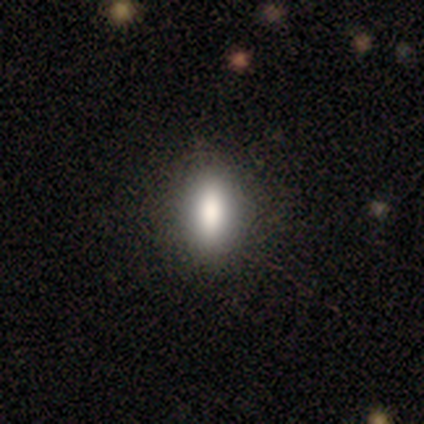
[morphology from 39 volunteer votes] A smooth galaxy with no disk features (72%) that is in between round and cigar-shaped (71%).

Vote fractions:
- Smooth or featured? smooth: 72% / star or artifact: 15% / featured or disk: 13%
- How rounded? in between: 71% / cigar-shaped: 21% / round: 7%
- Merging? none: 94% / minor disturbance: 3% / major disturbance: 3% / merger: 0%